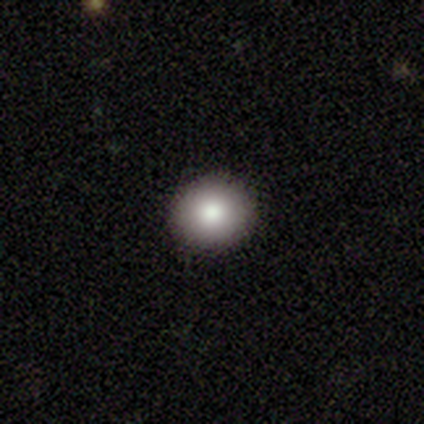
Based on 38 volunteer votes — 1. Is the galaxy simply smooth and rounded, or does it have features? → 76% smooth, 16% star or artifact, 8% featured or disk.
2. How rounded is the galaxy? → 76% round, 24% in between, 0% cigar-shaped.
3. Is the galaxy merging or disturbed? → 94% none, 6% minor disturbance, 0% major disturbance, 0% merger.